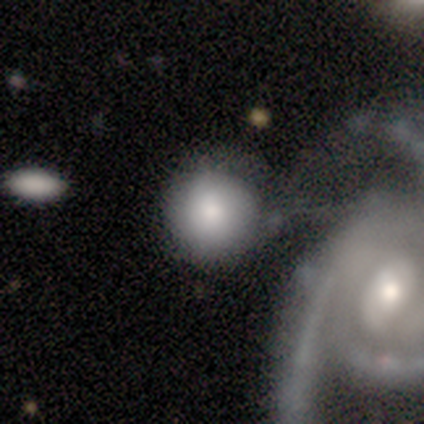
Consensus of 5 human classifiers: Morphology: type=smooth (80%); roundness=round (100%); merging=none (60%).